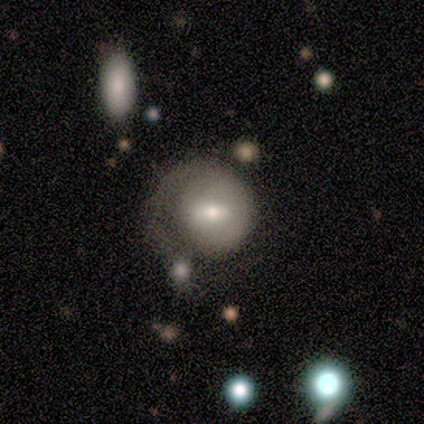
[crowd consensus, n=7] This appears to be a smooth galaxy with no disk features (71%) that is round (80%). Merging: minor disturbance (43%).